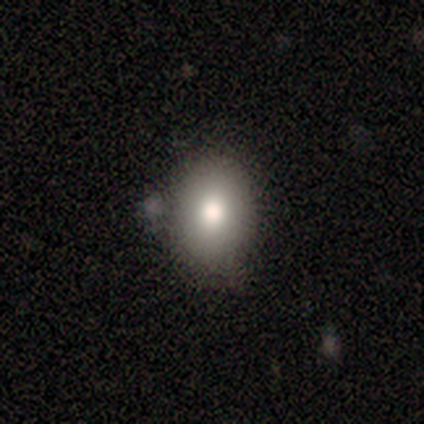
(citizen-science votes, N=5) Q: Smooth or featured?
A: smooth (80%); runner-up: star or artifact (20%)
Q: How rounded?
A: round (50%); tied with: in between (50%)
Q: Merging?
A: none (75%); runner-up: minor disturbance (25%)